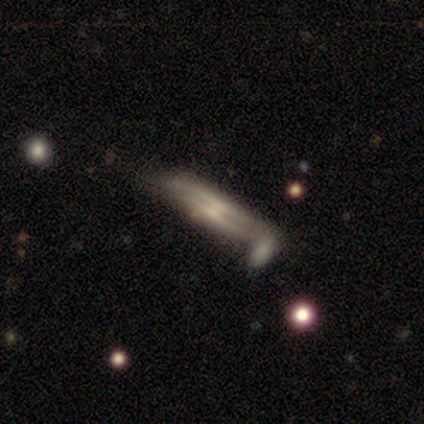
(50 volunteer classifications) Q: Smooth or featured?
A: featured or disk (68%); runner-up: smooth (30%)
Q: Edge-on disk?
A: yes (88%); runner-up: no (12%)
Q: Edge-on bulge?
A: rounded (40%); runner-up: none (37%)
Q: Merging?
A: none (51%); runner-up: merger (27%)